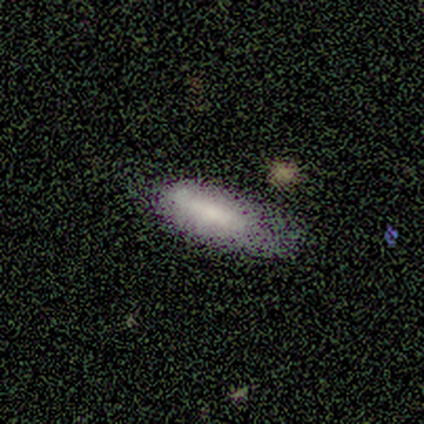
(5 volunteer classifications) Volunteers were most divided on "how rounded": cigar-shaped: 60%, in between: 40%, round: 0%. More confident: smooth or featured — smooth (100%); merging — none (80%).